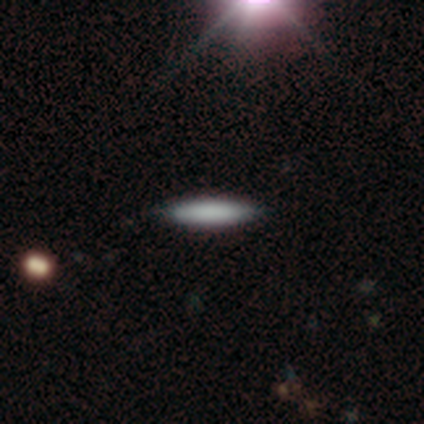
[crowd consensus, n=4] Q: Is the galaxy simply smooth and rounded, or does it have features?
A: smooth — 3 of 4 (75%).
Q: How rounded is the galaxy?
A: cigar-shaped — 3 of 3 (100%).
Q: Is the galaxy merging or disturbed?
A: none — 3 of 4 (75%).